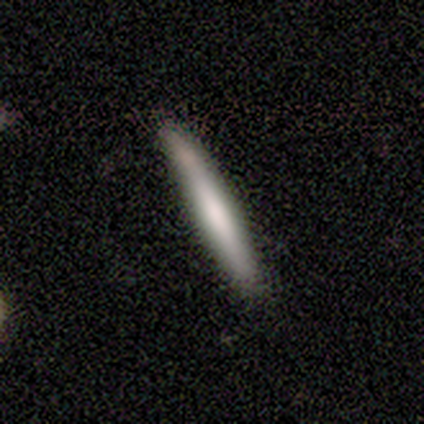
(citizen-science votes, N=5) Smooth or featured? 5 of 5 (100%) said smooth. How rounded? 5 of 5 (100%) said cigar-shaped. Merging? 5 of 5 (100%) said none.